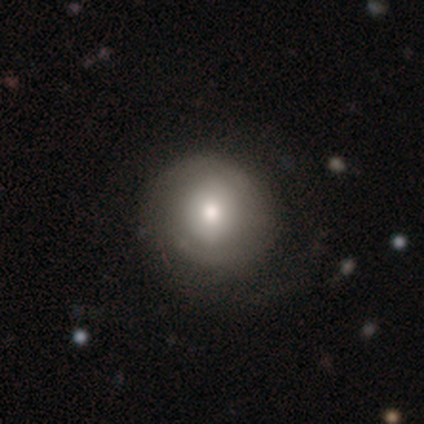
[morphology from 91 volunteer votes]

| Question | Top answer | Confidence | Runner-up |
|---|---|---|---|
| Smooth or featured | smooth | 58% | featured or disk (36%) |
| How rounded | round | 100% | — |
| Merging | none | 65% | minor disturbance (22%) |